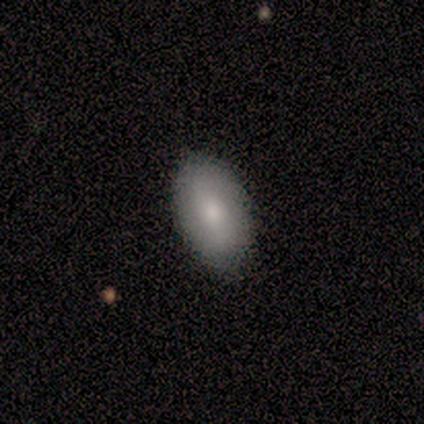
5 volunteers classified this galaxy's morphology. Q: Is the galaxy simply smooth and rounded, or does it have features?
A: smooth — 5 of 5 (100%).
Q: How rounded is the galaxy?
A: in between — 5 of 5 (100%).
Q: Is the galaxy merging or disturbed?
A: none — 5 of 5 (100%).